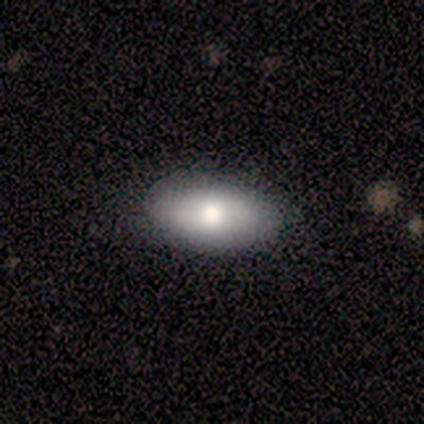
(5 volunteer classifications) smooth_or_featured: smooth (p=0.60) [alt: featured or disk p=0.40]
how_rounded: in between (p=1.00)
merging: none (p=0.80) [alt: minor disturbance p=0.20]